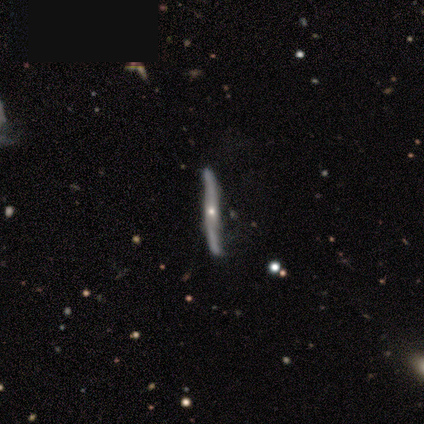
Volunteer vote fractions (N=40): This appears to be a featured or disk galaxy (82%) viewed edge-on (82%) with a rounded central bulge (59%). Merging: none (68%).